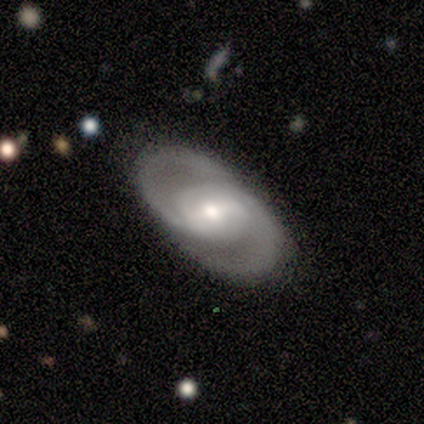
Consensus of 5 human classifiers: Overall: featured or disk (80%). Edge-on disk: no (100%). Bar: no (75%). Spiral arms: yes (100%). Spiral arm count: 2 (100%). Spiral winding: medium (75%). Bulge size: moderate (50%; large 25%). Merging: none (60%; major disturbance 40%).